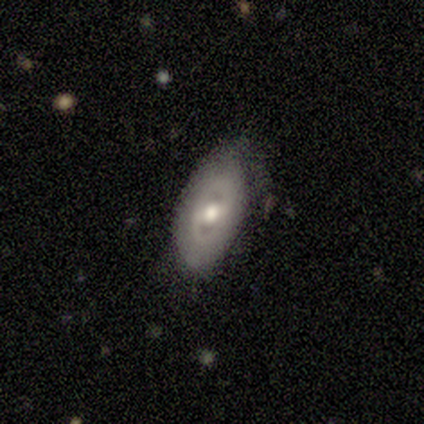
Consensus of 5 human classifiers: Smooth or featured?
  - featured or disk: 80% *
  - smooth: 20%
  - star or artifact: 0%
Edge-on disk?
  - no: 75% *
  - yes: 25%
Bar?
  - no: 100% *
  - strong: 0%
  - weak: 0%
Spiral arms?
  - no: 100% *
  - yes: 0%
Bulge size?
  - moderate: 100% *
  - dominant: 0%
  - large: 0%
  - small: 0%
  - none: 0%
Merging?
  - none: 80% *
  - minor disturbance: 20%
  - major disturbance: 0%
  - merger: 0%